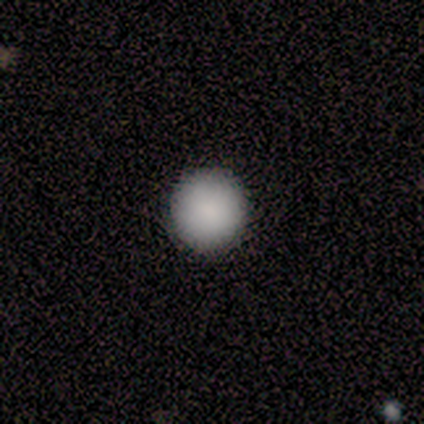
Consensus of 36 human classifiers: Smooth or featured: smooth — 94% (featured or disk — 6%)
How rounded: round — 100%
Merging: none — 100%